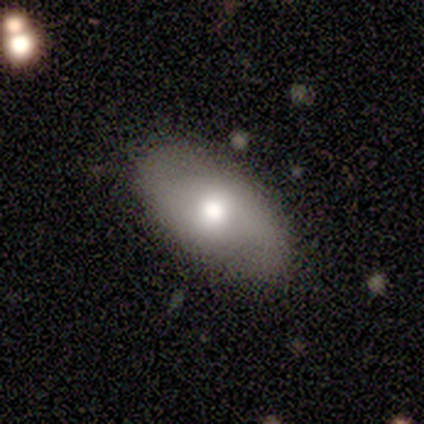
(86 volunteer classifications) Q: Smooth or featured?
A: smooth (58%); runner-up: featured or disk (34%)
Q: How rounded?
A: in between (92%); runner-up: round (6%)
Q: Merging?
A: none (73%); runner-up: minor disturbance (19%)